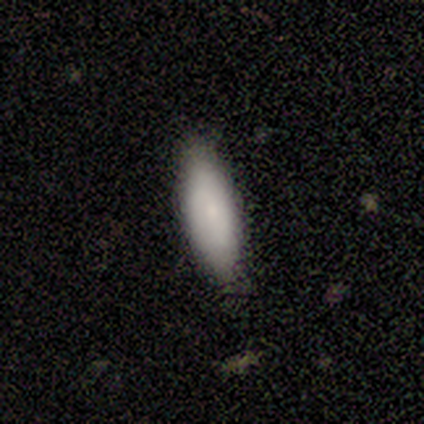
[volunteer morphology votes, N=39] Smooth or featured: smooth — 87% (star or artifact — 8%)
How rounded: in between — 65% (cigar-shaped — 35%)
Merging: none — 83% (minor disturbance — 17%)